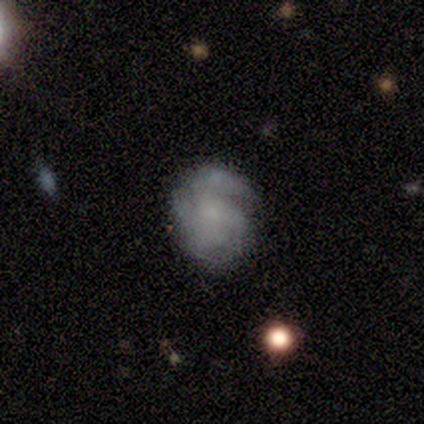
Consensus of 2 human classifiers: smooth 50% (tied), featured or disk 50% (tied), star or artifact 0%. Down the decision tree: how rounded — round (100%); merging — none (100%).